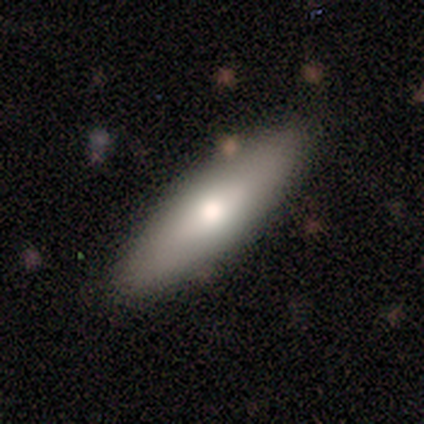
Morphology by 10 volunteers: Smooth or featured: smooth — 80% (featured or disk — 20%)
How rounded: cigar-shaped — 88% (in between — 12%)
Merging: none — 90% (minor disturbance — 10%)